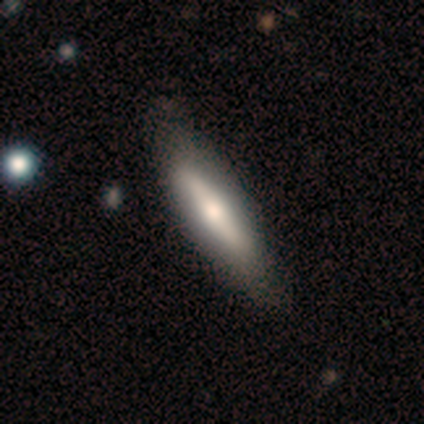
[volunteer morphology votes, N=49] smooth-or-featured: featured or disk: 53% | smooth: 47% | star or artifact: 0%
  disk-edge-on: yes: 73% | no: 27%
    edge-on-bulge: rounded: 95% | boxy: 5% | none: 0%
  merging: none: 78% | minor disturbance: 20% | major disturbance: 2% | merger: 0%